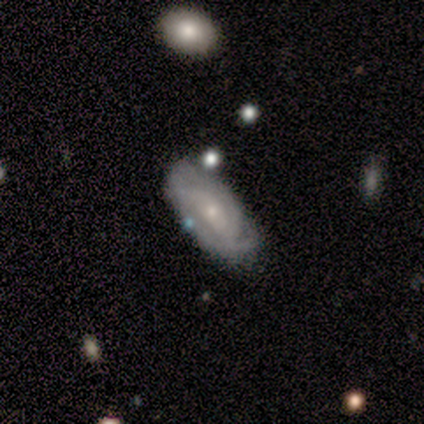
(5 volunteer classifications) Overall: featured or disk (80%). Edge-on disk: no (100%). Bar: no (75%). Spiral arms: yes (100%). Spiral arm count: can't tell (50%; 2 25%). Spiral winding: tight (50%; medium 25%). Bulge size: small (50%; large 25%). Merging: none (40%, tied with minor disturbance).